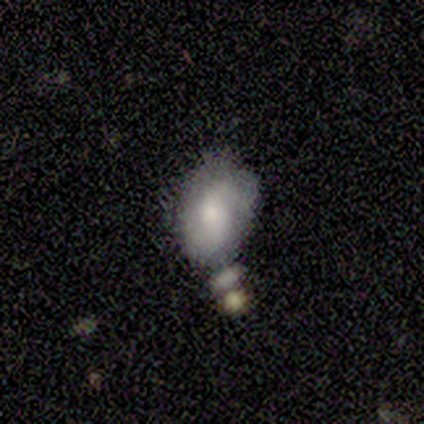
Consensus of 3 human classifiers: Volunteers were most divided on "smooth or featured": smooth: 67%, featured or disk: 33%, star or artifact: 0%. More confident: how rounded — in between (100%); merging — none (67%).